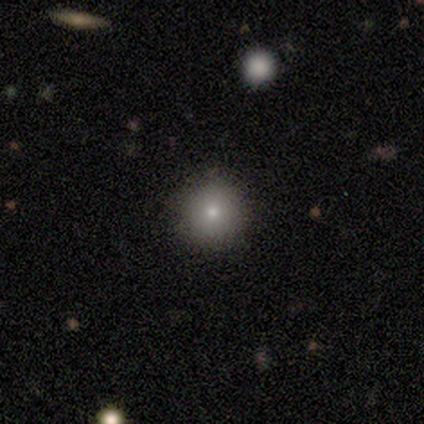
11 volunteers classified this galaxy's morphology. Overall: smooth (64%; star or artifact 36%). How rounded: round (100%). Merging: none (100%).